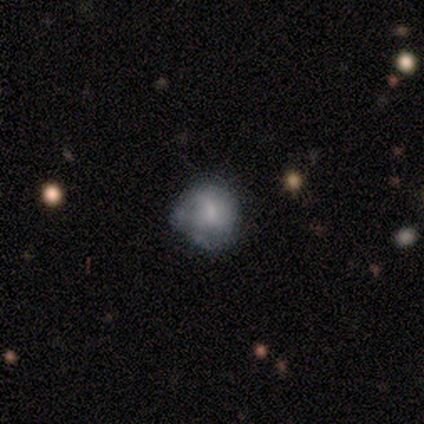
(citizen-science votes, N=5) Smooth or featured: featured or disk — 60% (smooth — 40%)
Edge-on disk: no — 100%
Bar: no — 67% (weak — 33%)
Spiral arms: no — 67% (yes — 33%)
Bulge size: moderate — 33% (tied with small — 33%; none — 33%)
Merging: none — 40% (tied with minor disturbance — 40%)